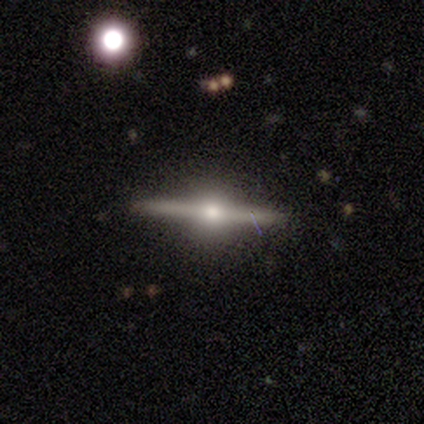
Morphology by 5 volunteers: Smooth or featured? featured or disk (100%)
Edge-on disk? yes (100%)
Edge-on bulge? rounded (100%)
Merging? none (100%)